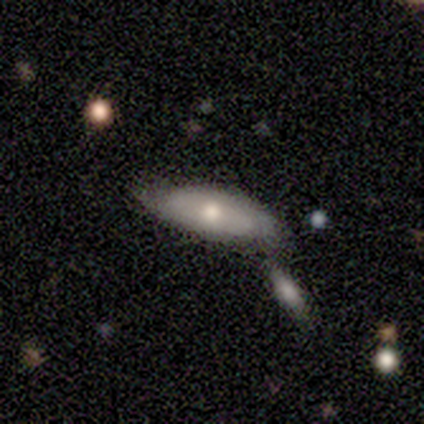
Q: Smooth or featured?
A: smooth (80%); runner-up: featured or disk (20%)
Q: How rounded?
A: in between (50%); tied with: cigar-shaped (50%)
Q: Merging?
A: none (60%); runner-up: merger (40%)